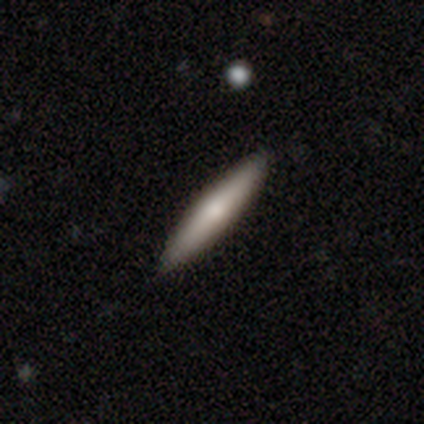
smooth_or_featured: smooth (p=0.56) [alt: featured or disk p=0.36]
how_rounded: cigar-shaped (p=1.00)
merging: none (p=0.89) [alt: minor disturbance p=0.08]